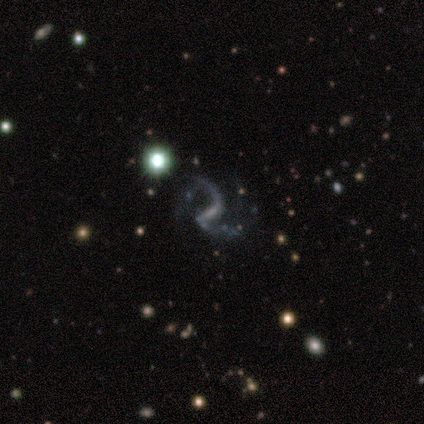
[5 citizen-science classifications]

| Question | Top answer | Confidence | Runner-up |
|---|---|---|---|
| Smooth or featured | featured or disk | 100% | — |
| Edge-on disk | no | 100% | — |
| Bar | weak | 60% | strong (20%) |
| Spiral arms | yes | 80% | no (20%) |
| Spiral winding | loose | 75% | medium (25%) |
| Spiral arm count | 2 | 100% | — |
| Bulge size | small | 60% | moderate (20%) |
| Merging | minor disturbance | 80% | major disturbance (20%) |